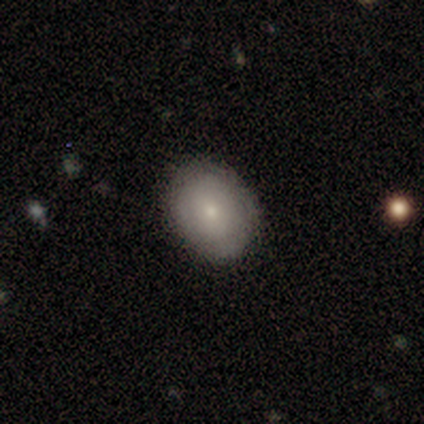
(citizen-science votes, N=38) smooth-or-featured: smooth: 55% | featured or disk: 42% | star or artifact: 3%
  how-rounded: round: 52% | in between: 48% | cigar-shaped: 0%
  merging: none: 92% | minor disturbance: 8% | major disturbance: 0% | merger: 0%